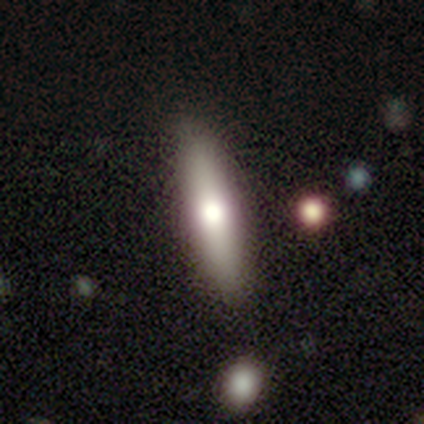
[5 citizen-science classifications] Overall: smooth (80%). How rounded: cigar-shaped (75%). Merging: none (80%).